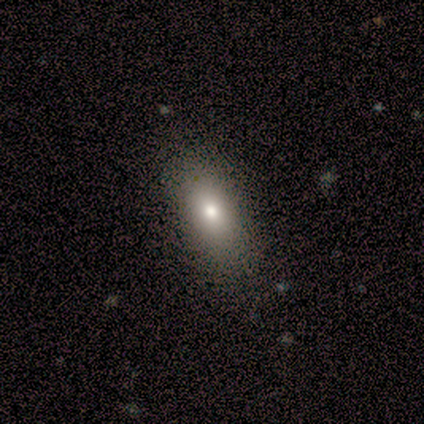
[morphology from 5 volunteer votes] smooth-or-featured: smooth: 60% | featured or disk: 40% | star or artifact: 0%
  how-rounded: round: 33% (tied) | in between: 33% (tied) | cigar-shaped: 33% (tied)
  merging: none: 60% | minor disturbance: 20% | major disturbance: 20% | merger: 0%